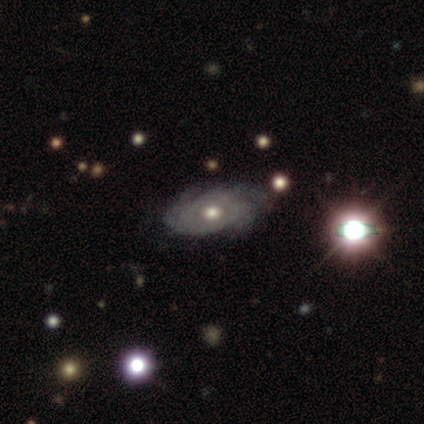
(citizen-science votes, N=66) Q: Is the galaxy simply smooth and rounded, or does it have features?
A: featured or disk — 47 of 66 (71%).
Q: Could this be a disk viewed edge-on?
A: no — 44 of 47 (94%).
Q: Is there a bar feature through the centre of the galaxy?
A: no — 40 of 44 (91%).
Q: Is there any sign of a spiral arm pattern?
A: yes — 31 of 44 (70%).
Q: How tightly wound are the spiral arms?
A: tight — 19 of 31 (61%).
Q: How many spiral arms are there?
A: can't tell — 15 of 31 (48%).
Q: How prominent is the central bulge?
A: moderate — 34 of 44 (77%).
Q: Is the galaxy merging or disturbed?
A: none — 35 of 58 (60%).